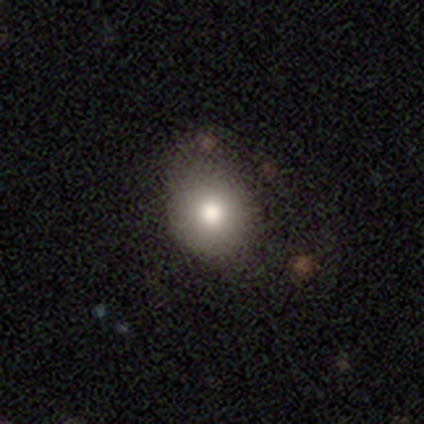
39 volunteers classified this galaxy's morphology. smooth-or-featured: smooth: 77% | featured or disk: 15% | star or artifact: 8%
  how-rounded: round: 73% | in between: 27% | cigar-shaped: 0%
  merging: none: 58% | minor disturbance: 31% | major disturbance: 11% | merger: 0%